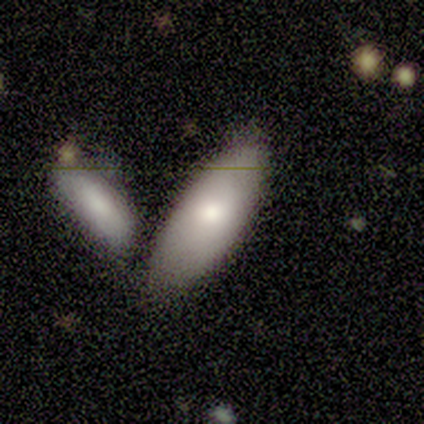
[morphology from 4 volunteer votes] This is clearly a smooth galaxy (100%). How rounded: likely in between (75%). Merging: possibly none (50%).